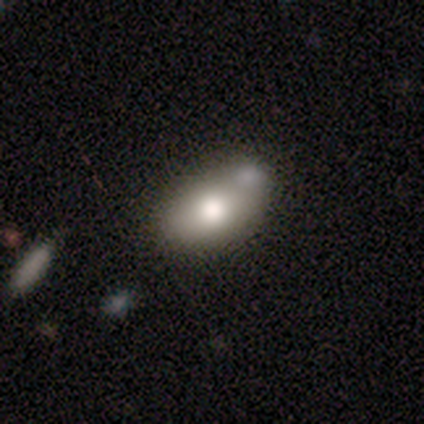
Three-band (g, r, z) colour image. It shows a smooth galaxy with no disk features (89%) that is in between round and cigar-shaped (97%). Merging: none (41%).